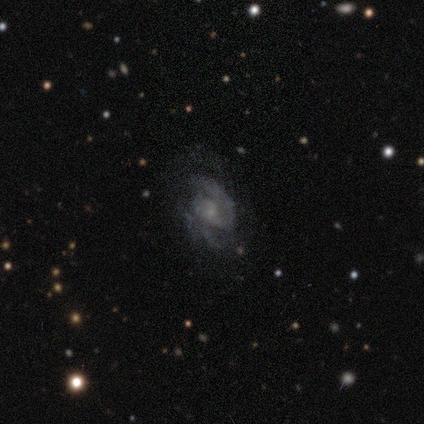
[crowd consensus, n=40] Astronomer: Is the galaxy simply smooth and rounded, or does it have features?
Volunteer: featured or disk — 78%.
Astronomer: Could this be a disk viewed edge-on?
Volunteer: no — 94%.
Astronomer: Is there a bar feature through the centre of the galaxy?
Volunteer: no — 66%.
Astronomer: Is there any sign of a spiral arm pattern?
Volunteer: yes — 90%.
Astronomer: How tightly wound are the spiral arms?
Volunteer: medium — 50% (runner-up: tight, 27%).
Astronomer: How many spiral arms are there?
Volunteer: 2 — 77%.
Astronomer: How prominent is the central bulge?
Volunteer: small — 79%.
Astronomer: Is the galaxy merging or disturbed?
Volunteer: none — 58%.